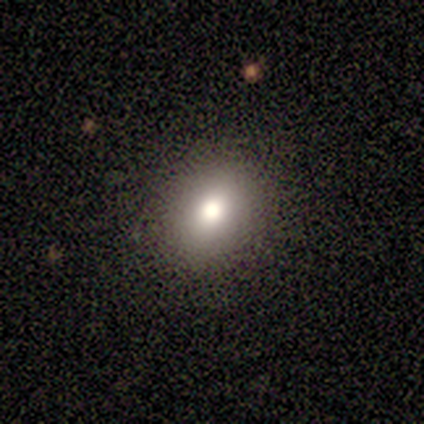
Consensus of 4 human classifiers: Morphology: type=smooth (100%); roundness=round (50%, tied with in between); merging=none (100%).